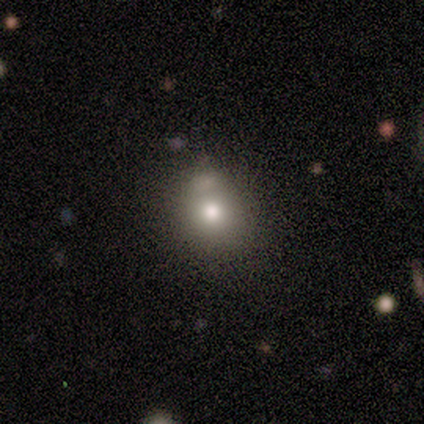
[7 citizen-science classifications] Overall: smooth (71%). How rounded: in between (60%; round 40%). Merging: none (50%, tied with minor disturbance).